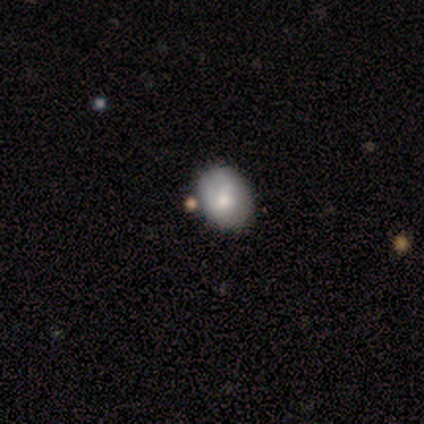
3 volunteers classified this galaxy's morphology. Smooth or featured? smooth (100%)
How rounded? in between (67%)
Merging? minor disturbance (67%)